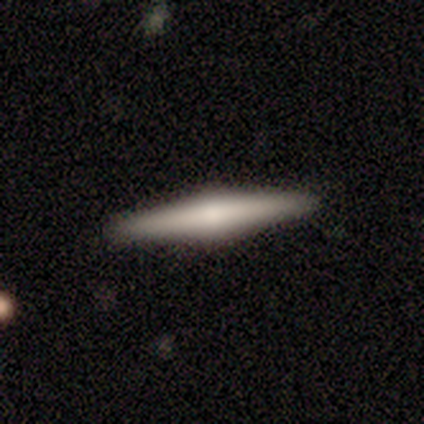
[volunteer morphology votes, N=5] Overall: smooth (60%; featured or disk 40%). How rounded: cigar-shaped (100%). Merging: none (100%).